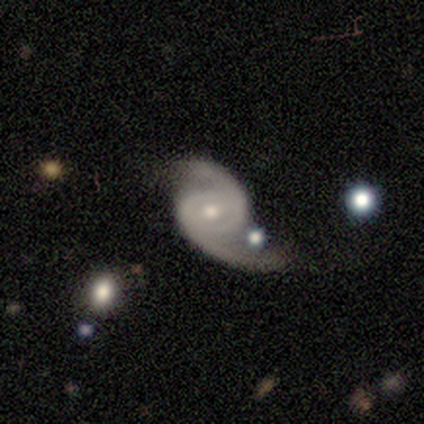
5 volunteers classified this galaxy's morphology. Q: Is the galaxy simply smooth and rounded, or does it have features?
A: featured or disk — 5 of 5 (100%).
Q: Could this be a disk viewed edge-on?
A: no — 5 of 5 (100%).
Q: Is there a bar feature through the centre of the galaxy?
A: no — 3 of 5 (60%).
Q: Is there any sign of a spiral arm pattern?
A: yes — 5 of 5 (100%).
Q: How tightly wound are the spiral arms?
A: loose — 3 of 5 (60%).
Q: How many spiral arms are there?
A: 2 — 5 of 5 (100%).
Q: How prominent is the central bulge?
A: moderate — 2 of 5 (40%, tied with small).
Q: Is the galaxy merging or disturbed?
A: none — 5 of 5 (100%).